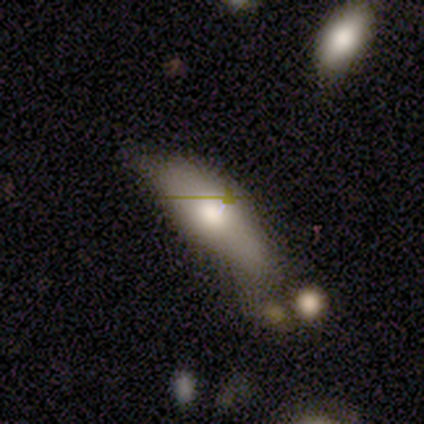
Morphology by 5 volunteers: type=smooth (60%); roundness=in between (67%); merging=minor disturbance (60%).